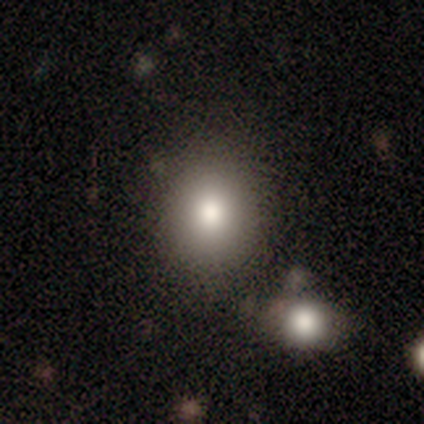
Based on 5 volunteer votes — This appears to be a smooth galaxy with no disk features (100%) that is round (60%). Merging: none (80%).